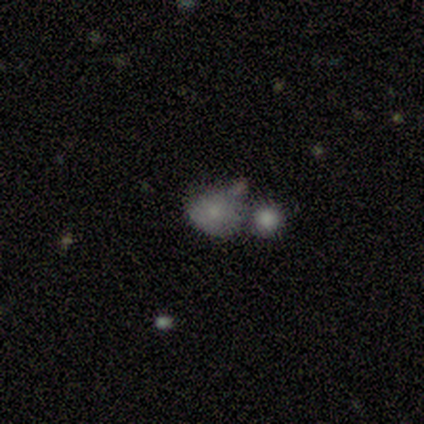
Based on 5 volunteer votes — Smooth or featured: smooth — 80% (star or artifact — 20%)
How rounded: round — 75% (in between — 25%)
Merging: merger — 50% (none — 25%)